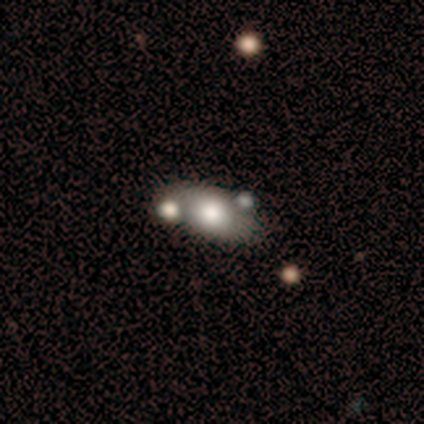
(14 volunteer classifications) Smooth or featured? smooth (71%)
How rounded? in between (90%)
Merging? none (64%)